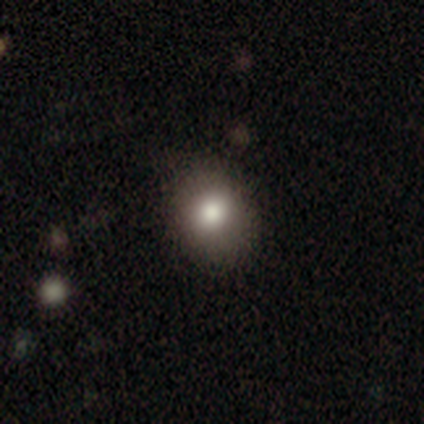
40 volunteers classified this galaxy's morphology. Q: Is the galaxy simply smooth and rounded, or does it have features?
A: smooth — 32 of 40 (80%).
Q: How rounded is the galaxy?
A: round — 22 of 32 (69%).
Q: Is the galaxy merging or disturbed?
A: none — 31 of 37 (84%).